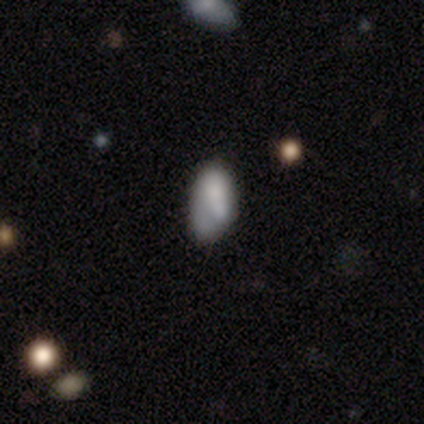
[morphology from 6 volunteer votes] smooth 100%, featured or disk 0%, star or artifact 0%. Down the decision tree: how rounded — in between (100%); merging — minor disturbance (50%).